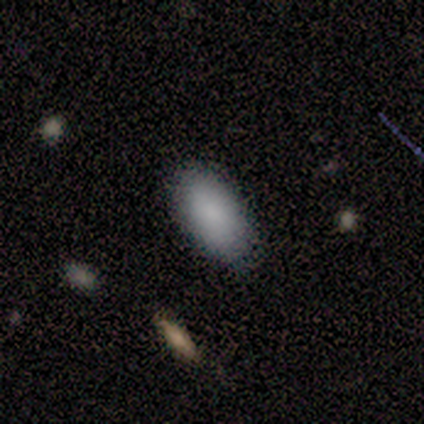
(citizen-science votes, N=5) Consensus on every question: smooth or featured — smooth (100%); how rounded — in between (100%); merging — none (100%).